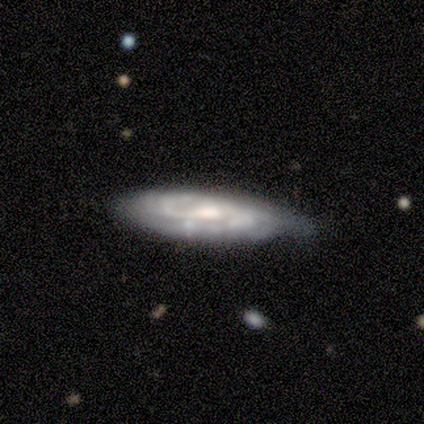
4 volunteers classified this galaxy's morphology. A featured or disk galaxy (75%) with a strong bar (33%, tied with weak and no), 2 (67%) tight (67%) spiral arms (100%) and a moderate central bulge (100%).

Vote fractions:
- Smooth or featured? featured or disk: 75% / smooth: 25% / star or artifact: 0%
- Edge-on disk? no: 100% / yes: 0%
- Bar? strong: 33% (tied) / weak: 33% (tied) / no: 33% (tied)
- Spiral arms? yes: 100% / no: 0%
- Spiral winding? tight: 67% / medium: 33% / loose: 0%
- Spiral arm count? 2: 67% / can't tell: 33% / 1: 0% / 3: 0% / 4: 0% / more than 4: 0%
- Bulge size? moderate: 100% / dominant: 0% / large: 0% / small: 0% / none: 0%
- Merging? none: 75% / minor disturbance: 25% / major disturbance: 0% / merger: 0%